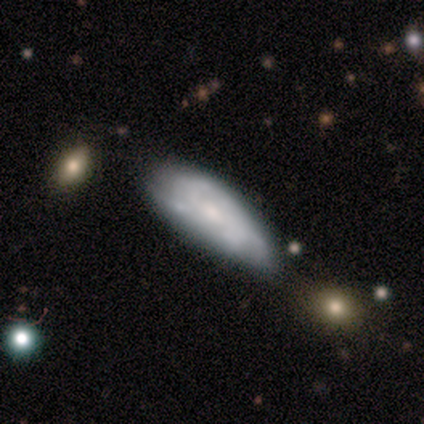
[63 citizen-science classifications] Morphology: type=featured or disk (52%); edge-on=no (91%); bar=no (73%); spiral arms=yes (70%); winding=tight (48%); arm count=can't tell (76%); bulge=small (47%); merging=none (36%).